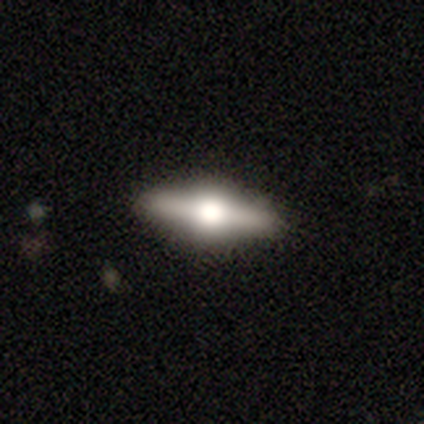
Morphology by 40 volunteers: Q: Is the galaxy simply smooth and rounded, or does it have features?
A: featured or disk — 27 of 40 (68%).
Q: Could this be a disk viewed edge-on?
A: yes — 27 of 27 (100%).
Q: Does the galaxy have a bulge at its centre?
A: rounded — 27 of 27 (100%).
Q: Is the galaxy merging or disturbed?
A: none — 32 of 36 (89%).